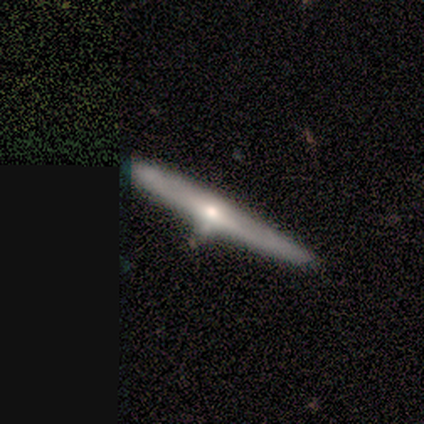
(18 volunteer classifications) Smooth or featured?
  - featured or disk: 89% *
  - smooth: 6%
  - star or artifact: 6%
Edge-on disk?
  - yes: 94% *
  - no: 6%
Edge-on bulge?
  - rounded: 73% *
  - none: 27%
  - boxy: 0%
Merging?
  - none: 59% *
  - minor disturbance: 41%
  - major disturbance: 0%
  - merger: 0%